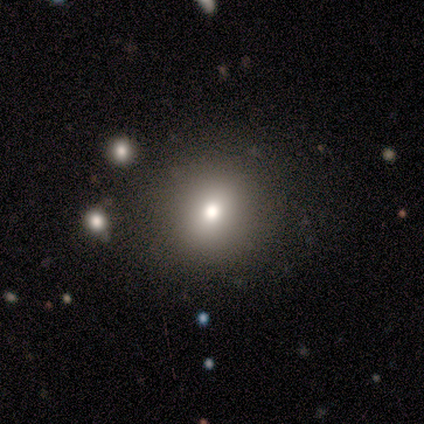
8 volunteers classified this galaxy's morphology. Volunteers were most divided on "smooth or featured": smooth: 75%, star or artifact: 25%, featured or disk: 0%. More confident: merging — none (100%); how rounded — round (83%).